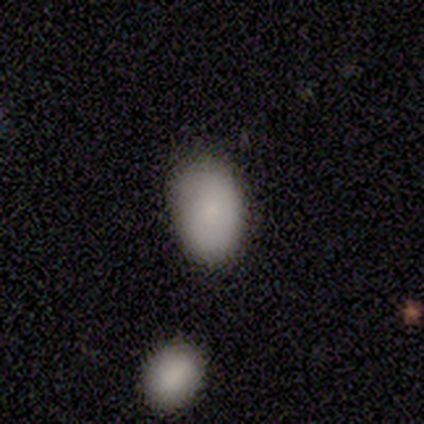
Q: Smooth or featured?
A: smooth (80%); runner-up: featured or disk (20%)
Q: How rounded?
A: in between (75%); runner-up: round (25%)
Q: Merging?
A: none (80%); runner-up: minor disturbance (20%)